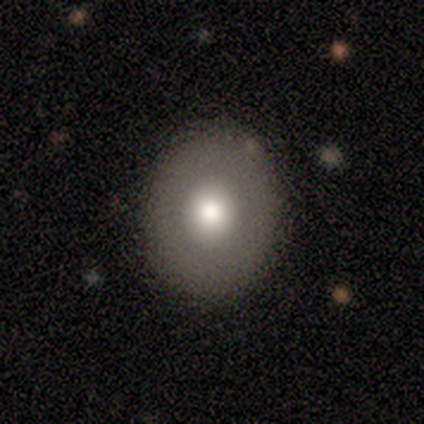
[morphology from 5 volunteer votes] smooth_or_featured: smooth (p=0.60) [alt: featured or disk p=0.20]
how_rounded: round (p=0.67) [alt: in between p=0.33]
merging: none (p=1.00)